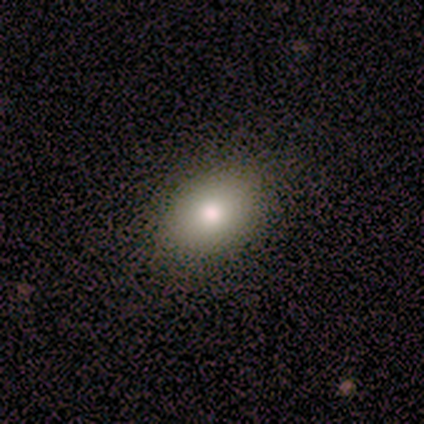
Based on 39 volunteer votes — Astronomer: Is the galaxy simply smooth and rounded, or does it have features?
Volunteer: smooth — 87%.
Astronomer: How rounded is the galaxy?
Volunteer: in between — 82%.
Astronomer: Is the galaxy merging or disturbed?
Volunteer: none — 89%.